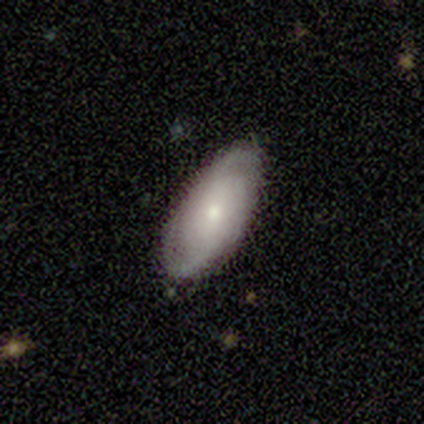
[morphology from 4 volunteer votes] This appears to be a smooth galaxy with no disk features (75%) that is in between round and cigar-shaped (100%). Merging: none (75%).